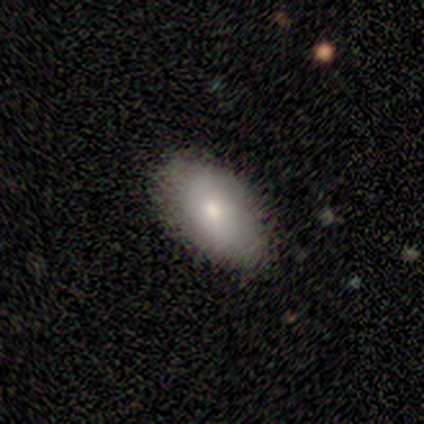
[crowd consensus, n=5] This is clearly a smooth galaxy (100%). How rounded: clearly in between (100%). Merging: clearly none (100%).